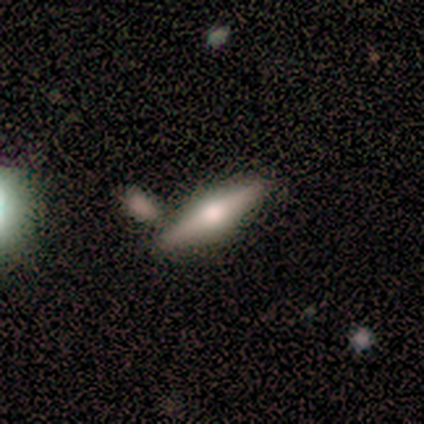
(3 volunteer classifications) This appears to be a featured or disk galaxy (67%) viewed edge-on (100%) with no central bulge (50%, tied with rounded). Merging: none (67%).